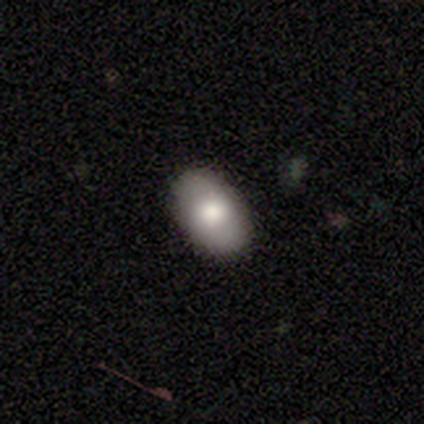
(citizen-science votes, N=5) Smooth or featured? smooth (80%)
How rounded? in between (100%)
Merging? none (100%)